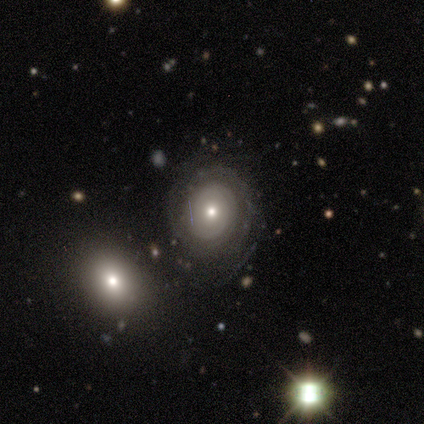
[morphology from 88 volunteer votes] Volunteers were most divided on "spiral arm count": can't tell: 55%, 2: 33%, 3: 6%, 1: 2%, 4: 2%, more than 4: 2%. More confident: edge-on disk — no (100%); bar — no (93%); spiral arms — yes (86%); spiral winding — tight (78%); merging — none (74%); smooth or featured — featured or disk (65%); bulge size — moderate (60%).